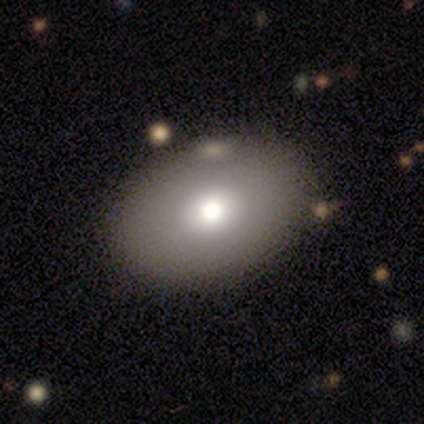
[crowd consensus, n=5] Overall: smooth (60%; star or artifact 40%). How rounded: in between (100%). Merging: none (100%).